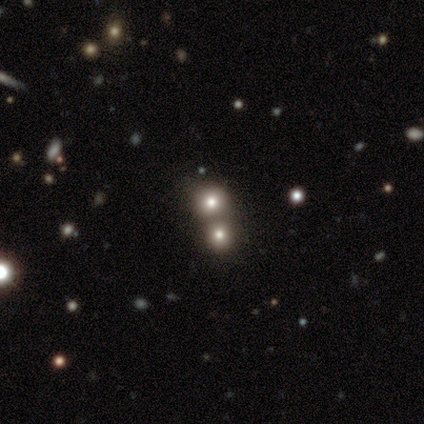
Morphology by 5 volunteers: This is clearly a star or artifact rather than a galaxy (80%).